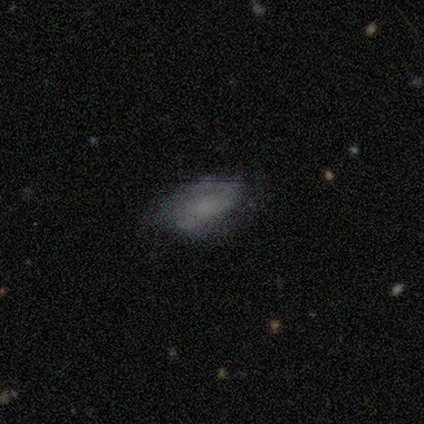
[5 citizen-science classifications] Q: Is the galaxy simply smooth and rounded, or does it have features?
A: smooth — 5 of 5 (100%).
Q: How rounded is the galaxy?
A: in between — 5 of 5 (100%).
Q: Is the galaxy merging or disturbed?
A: none — 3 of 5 (60%).